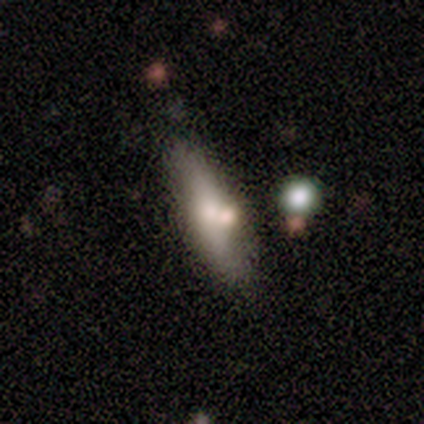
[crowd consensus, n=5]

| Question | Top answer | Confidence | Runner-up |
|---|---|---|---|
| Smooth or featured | smooth | 40% | tied: featured or disk (40%) |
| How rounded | in between | 50% | tied: cigar-shaped (50%) |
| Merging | none | 50% | tied: merger (50%) |